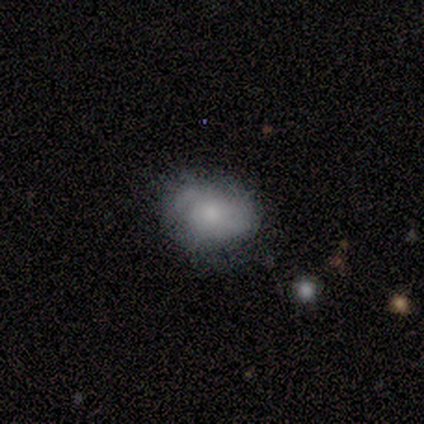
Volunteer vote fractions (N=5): Volunteers were most divided on "smooth or featured" (2-way tie): smooth: 40%, featured or disk: 40%, star or artifact: 20%; "how rounded" (2-way tie): round: 50%, in between: 50%, cigar-shaped: 0%; "merging" (2-way tie): none: 50%, minor disturbance: 50%, major disturbance: 0%, merger: 0%.